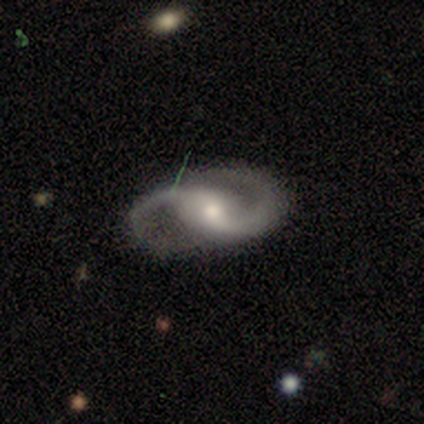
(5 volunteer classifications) Morphology: type=featured or disk (100%); edge-on=no (100%); bar=no (80%); spiral arms=yes (100%); winding=medium (60%); arm count=2 (80%); bulge=moderate (80%); merging=none (100%).